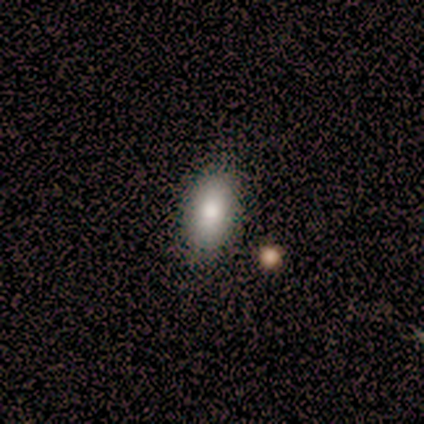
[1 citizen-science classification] Smooth or featured? smooth (100%)
How rounded? in between (100%)
Merging? none (100%)